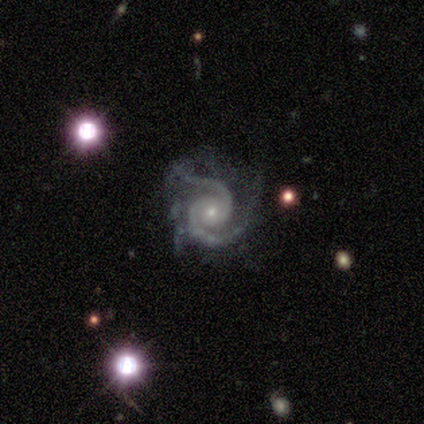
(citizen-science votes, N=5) smooth_or_featured: featured or disk (p=1.00)
disk_edge_on: no (p=1.00)
bar: no (p=0.80) [alt: weak p=0.20]
has_spiral_arms: yes (p=1.00)
spiral_winding: tight (p=0.60) [alt: medium p=0.40]
spiral_arm_count: 2 (p=1.00)
bulge_size: small (p=1.00)
merging: minor disturbance (p=0.80) [alt: major disturbance p=0.20]